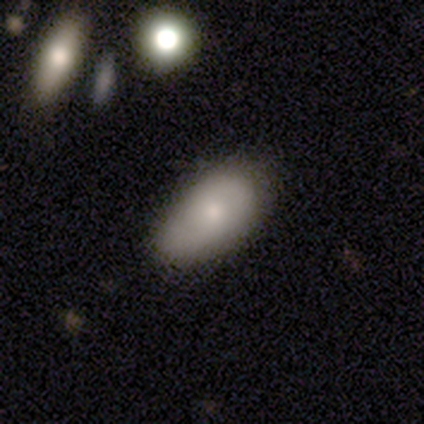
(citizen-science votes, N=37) smooth 68%, featured or disk 19%, star or artifact 14%. Down the decision tree: how rounded — in between (88%); merging — none (75%).